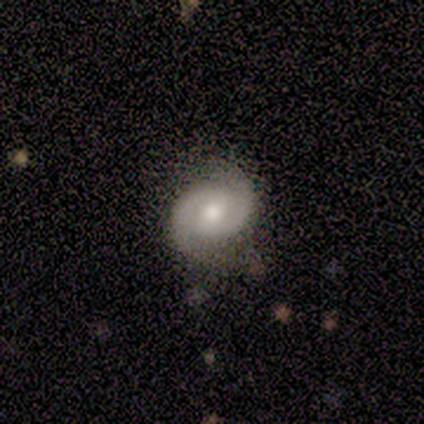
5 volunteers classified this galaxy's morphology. Q: Smooth or featured?
A: featured or disk (80%); runner-up: smooth (20%)
Q: Edge-on disk?
A: no (100%)
Q: Bar?
A: weak (75%); runner-up: no (25%)
Q: Spiral arms?
A: yes (100%)
Q: Spiral winding?
A: tight (75%); runner-up: medium (25%)
Q: Spiral arm count?
A: 2 (75%); runner-up: can't tell (25%)
Q: Bulge size?
A: moderate (100%)
Q: Merging?
A: none (100%)